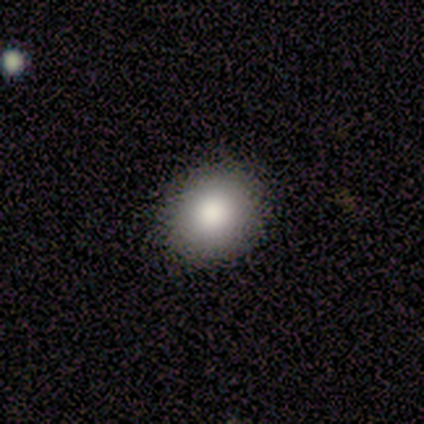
Volunteers were most divided on "how rounded": round: 80%, in between: 20%, cigar-shaped: 0%. More confident: smooth or featured — smooth (100%); merging — none (100%).